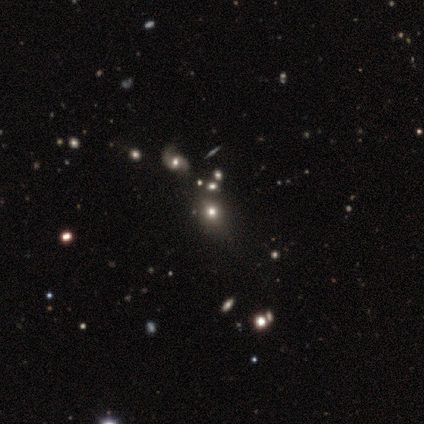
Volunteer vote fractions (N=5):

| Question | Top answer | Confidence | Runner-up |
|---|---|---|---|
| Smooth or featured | smooth | 40% | tied: star or artifact (40%) |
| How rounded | round | 50% | tied: in between (50%) |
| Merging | none | 100% | — |